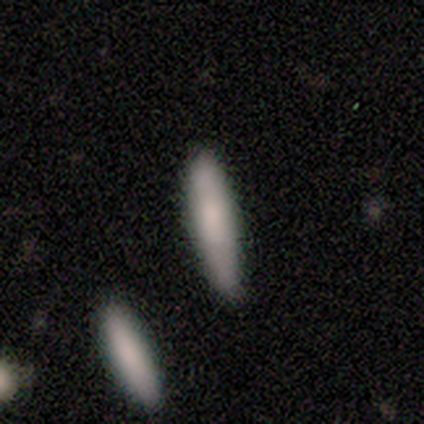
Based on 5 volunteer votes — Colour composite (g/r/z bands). It shows a smooth galaxy with no disk features (80%) that is cigar-shaped (75%). Merging: none (100%).